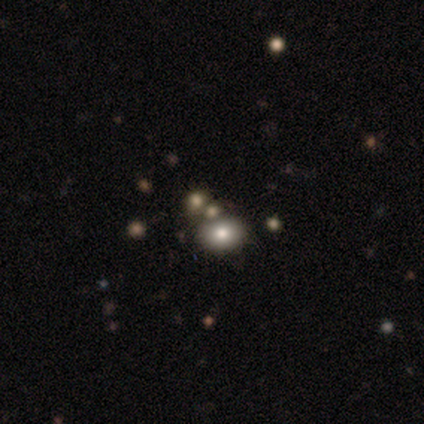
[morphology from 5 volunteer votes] Smooth or featured? 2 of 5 (40%, tied with star or artifact) said smooth. How rounded? 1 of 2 (50%, tied with in between) said round. Merging? 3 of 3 (100%) said none.